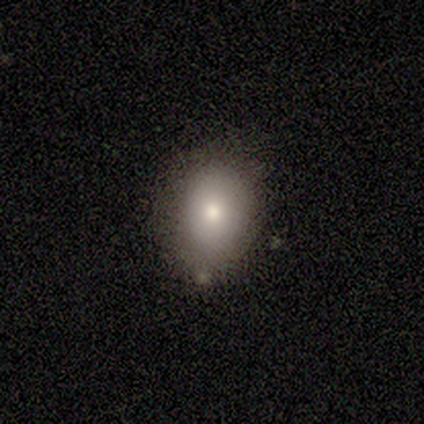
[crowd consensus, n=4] A smooth galaxy with no disk features (100%) that is in between round and cigar-shaped (75%).

Vote fractions:
- Smooth or featured? smooth: 100% / featured or disk: 0% / star or artifact: 0%
- How rounded? in between: 75% / round: 25% / cigar-shaped: 0%
- Merging? none: 100% / minor disturbance: 0% / major disturbance: 0% / merger: 0%